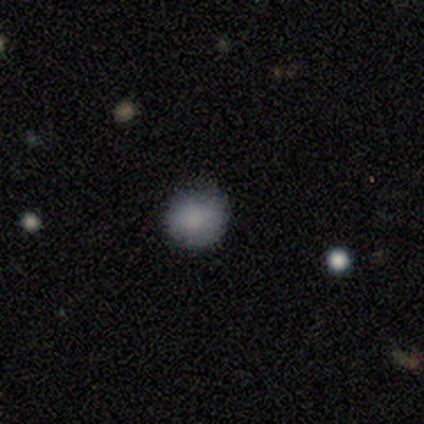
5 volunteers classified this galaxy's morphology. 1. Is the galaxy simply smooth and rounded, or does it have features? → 100% smooth, 0% featured or disk, 0% star or artifact.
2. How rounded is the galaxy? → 60% round, 40% in between, 0% cigar-shaped.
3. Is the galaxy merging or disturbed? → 100% none, 0% minor disturbance, 0% major disturbance, 0% merger.